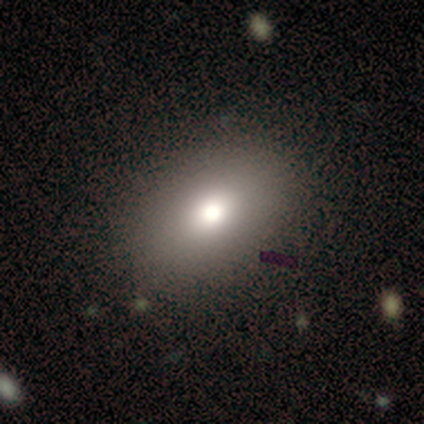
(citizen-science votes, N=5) smooth 60%, featured or disk 20%, star or artifact 20%. Down the decision tree: how rounded — round (67%); merging — none (75%).